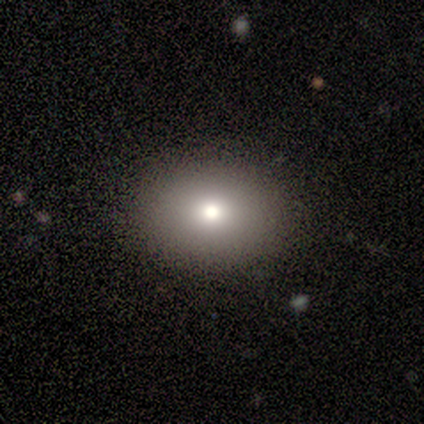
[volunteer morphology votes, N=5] A smooth galaxy with no disk features (60%) that is in between round and cigar-shaped (100%).

Vote fractions:
- Smooth or featured? smooth: 60% / featured or disk: 20% / star or artifact: 20%
- How rounded? in between: 100% / round: 0% / cigar-shaped: 0%
- Merging? none: 100% / minor disturbance: 0% / major disturbance: 0% / merger: 0%